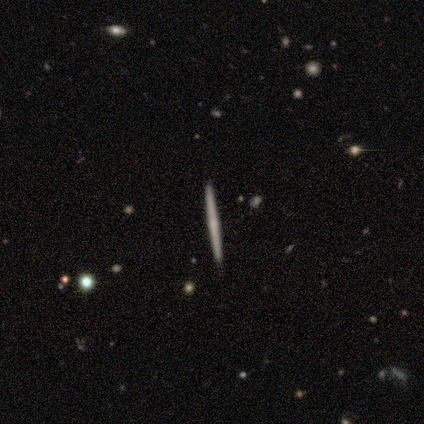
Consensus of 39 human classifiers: This appears to be a featured or disk galaxy (59%) viewed edge-on (96%) with no central bulge (59%). Merging: none (100%).